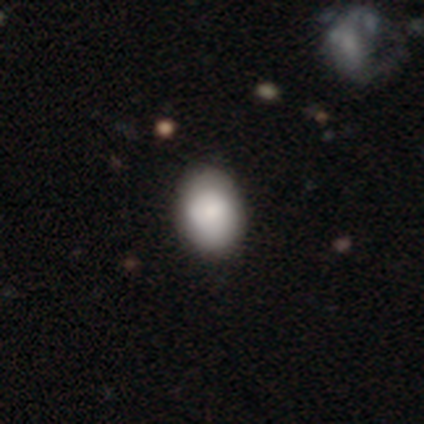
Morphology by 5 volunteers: Volunteers were most divided on "how rounded" (2-way tie): round: 50%, in between: 50%, cigar-shaped: 0%. More confident: smooth or featured — smooth (80%); merging — none (75%).